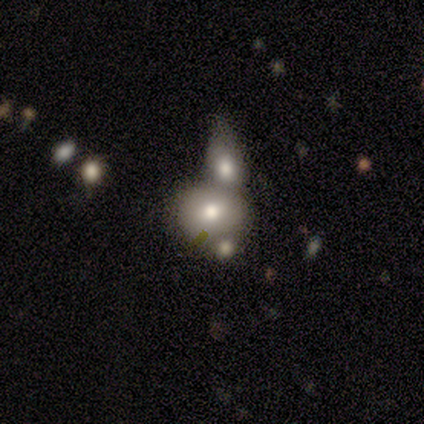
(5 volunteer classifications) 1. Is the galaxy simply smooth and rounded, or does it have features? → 80% smooth, 20% featured or disk, 0% star or artifact.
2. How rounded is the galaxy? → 75% round, 25% in between, 0% cigar-shaped.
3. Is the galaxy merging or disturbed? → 80% merger, 20% none, 0% minor disturbance, 0% major disturbance.